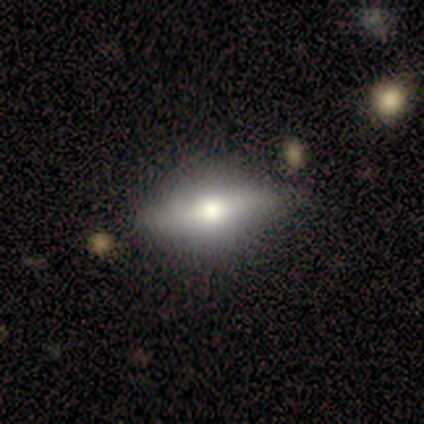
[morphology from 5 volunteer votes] smooth_or_featured: featured or disk (p=1.00)
disk_edge_on: yes (p=0.60) [alt: no p=0.40]
edge_on_bulge: rounded (p=1.00)
merging: none (p=1.00)